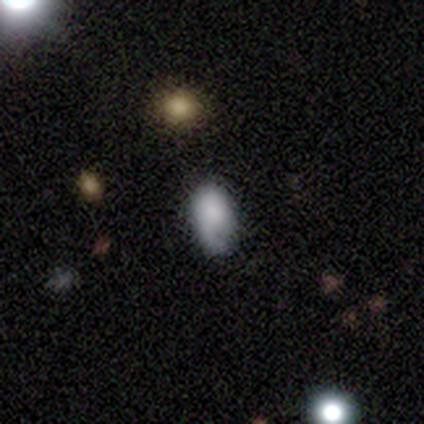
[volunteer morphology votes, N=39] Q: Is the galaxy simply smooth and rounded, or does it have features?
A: smooth — 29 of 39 (74%).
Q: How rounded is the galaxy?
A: in between — 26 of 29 (90%).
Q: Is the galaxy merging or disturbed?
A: none — 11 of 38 (29%).